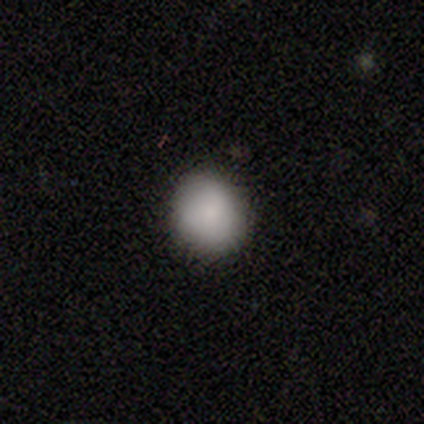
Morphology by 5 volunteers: A smooth galaxy with no disk features (100%) that is round (100%).

Vote fractions:
- Smooth or featured? smooth: 100% / featured or disk: 0% / star or artifact: 0%
- How rounded? round: 100% / in between: 0% / cigar-shaped: 0%
- Merging? none: 100% / minor disturbance: 0% / major disturbance: 0% / merger: 0%